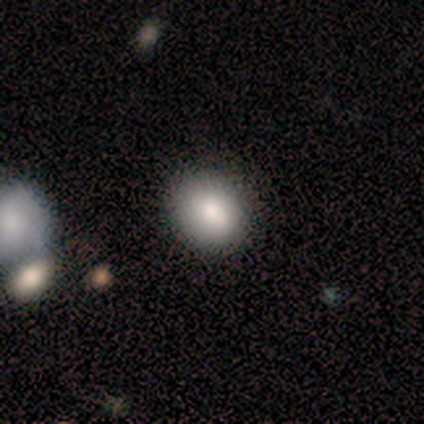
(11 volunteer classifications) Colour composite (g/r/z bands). It shows a smooth galaxy with no disk features (82%) that is in between round and cigar-shaped (78%). Merging: none (82%).